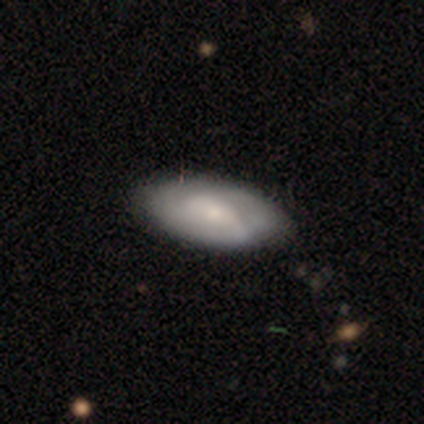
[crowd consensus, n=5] Smooth or featured? featured or disk (100%)
Edge-on disk? no (100%)
Bar? no (80%)
Spiral arms? no (60%)
Bulge size? small (60%)
Merging? none (100%)